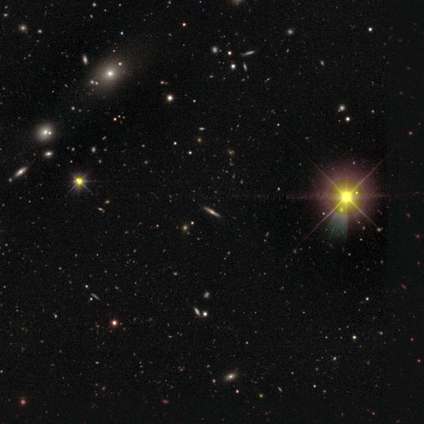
smooth_or_featured: featured or disk (p=0.50) [tied with: star or artifact p=0.50]
disk_edge_on: yes (p=1.00)
edge_on_bulge: rounded (p=1.00)
merging: none (p=1.00)